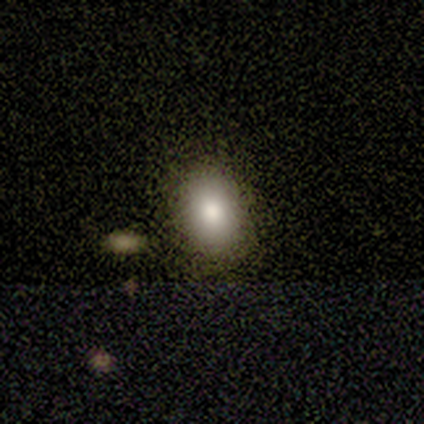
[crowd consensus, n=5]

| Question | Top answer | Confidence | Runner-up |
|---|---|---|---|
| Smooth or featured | smooth | 60% | featured or disk (20%) |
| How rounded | in between | 67% | cigar-shaped (33%) |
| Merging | none | 75% | minor disturbance (25%) |